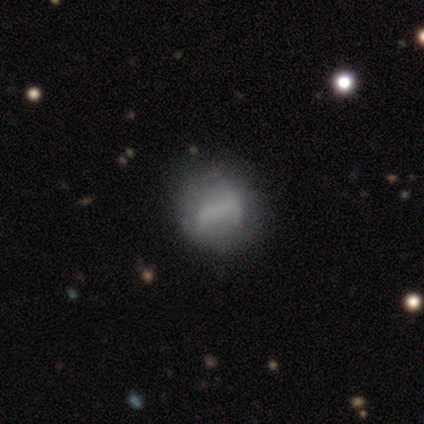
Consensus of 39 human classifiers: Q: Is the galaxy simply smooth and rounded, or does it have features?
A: smooth — 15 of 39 (38%, tied with featured or disk).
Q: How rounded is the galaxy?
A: round — 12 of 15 (80%).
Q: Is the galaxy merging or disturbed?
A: none — 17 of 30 (57%).